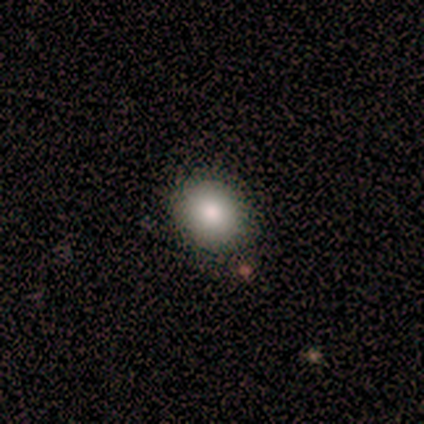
Volunteers were most divided on "how rounded": round: 80%, in between: 20%, cigar-shaped: 0%. More confident: smooth or featured — smooth (100%); merging — none (80%).